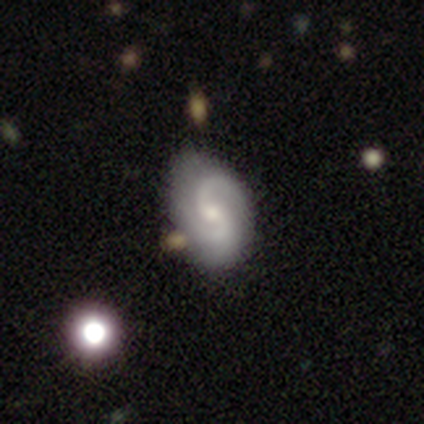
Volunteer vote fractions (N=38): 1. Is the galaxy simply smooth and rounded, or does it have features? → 92% featured or disk, 8% smooth, 0% star or artifact.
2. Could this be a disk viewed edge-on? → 100% no, 0% yes.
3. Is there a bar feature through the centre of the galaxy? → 63% no, 37% weak, 0% strong.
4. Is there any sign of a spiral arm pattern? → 97% yes, 3% no.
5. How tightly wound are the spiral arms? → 56% medium, 24% tight, 21% loose.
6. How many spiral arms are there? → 88% 2, 6% 1, 6% can't tell, 0% 3, 0% 4, 0% more than 4.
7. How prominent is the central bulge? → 49% moderate, 40% small, 9% none, 3% large, 0% dominant.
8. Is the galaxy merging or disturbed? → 55% none, 8% minor disturbance, 5% major disturbance, 5% merger.